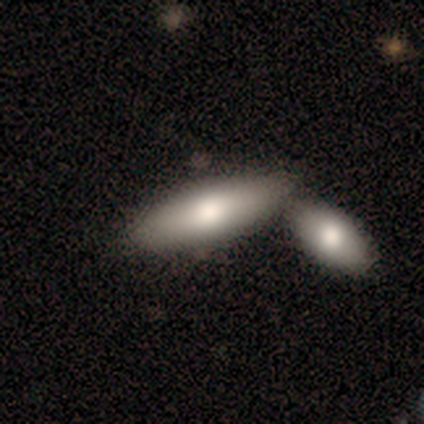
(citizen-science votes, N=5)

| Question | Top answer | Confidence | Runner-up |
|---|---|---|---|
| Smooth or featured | smooth | 80% | featured or disk (20%) |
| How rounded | in between | 75% | cigar-shaped (25%) |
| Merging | merger | 60% | none (20%) |